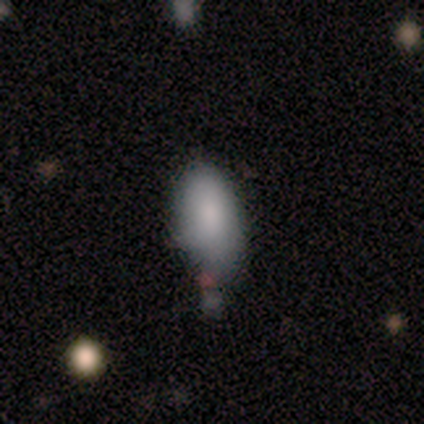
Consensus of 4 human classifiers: smooth-or-featured: smooth: 50% (tied) | star or artifact: 50% (tied) | featured or disk: 0%
  how-rounded: in between: 100% | round: 0% | cigar-shaped: 0%
  merging: none: 50% (tied) | major disturbance: 50% (tied) | minor disturbance: 0% | merger: 0%